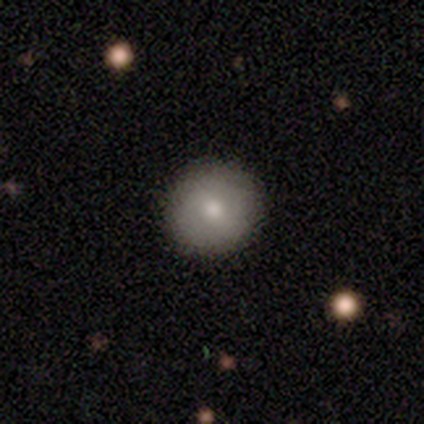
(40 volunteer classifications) smooth 80%, featured or disk 20%, star or artifact 0%. Down the decision tree: how rounded — round (94%); merging — none (95%).